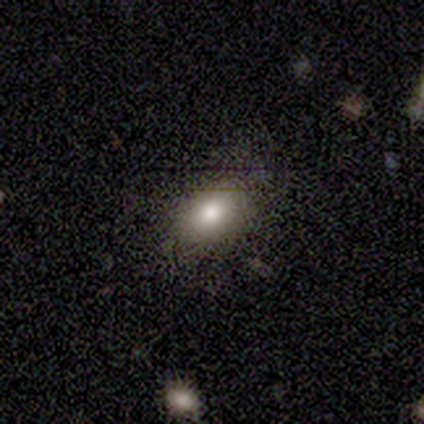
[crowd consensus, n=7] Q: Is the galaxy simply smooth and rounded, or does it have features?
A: smooth — 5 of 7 (71%).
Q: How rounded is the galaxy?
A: in between — 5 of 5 (100%).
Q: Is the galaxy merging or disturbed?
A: none — 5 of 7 (71%).